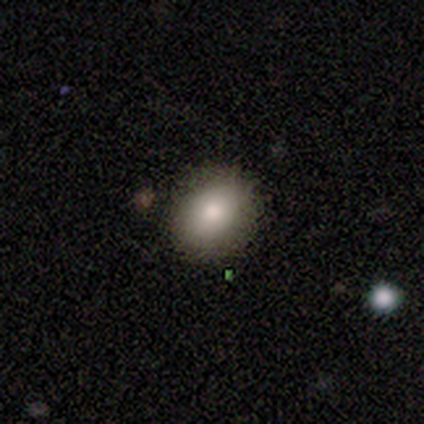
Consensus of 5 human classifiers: smooth 100%, featured or disk 0%, star or artifact 0%. Down the decision tree: how rounded — round (80%); merging — none (80%).